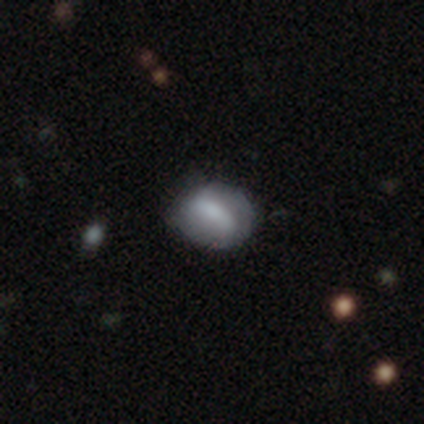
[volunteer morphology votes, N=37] Volunteers were most divided on "smooth or featured": smooth: 57%, featured or disk: 38%, star or artifact: 5%. Remaining: how rounded — in between (81%); merging — none (34%).